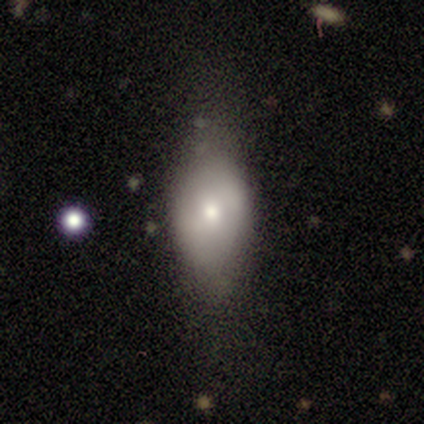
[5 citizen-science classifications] Smooth or featured? 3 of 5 (60%) said smooth. How rounded? 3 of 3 (100%) said in between. Merging? 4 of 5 (80%) said none.